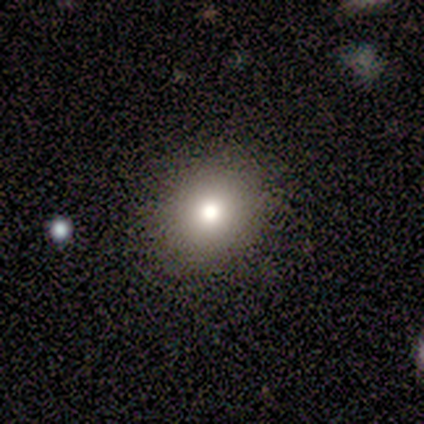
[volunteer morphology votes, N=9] This appears to be a smooth galaxy with no disk features (67%) that is round (50%, tied with in between). Merging: none (88%).